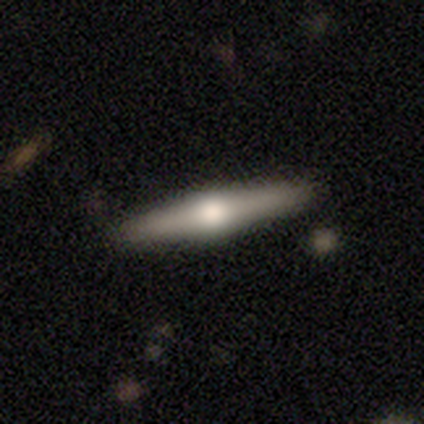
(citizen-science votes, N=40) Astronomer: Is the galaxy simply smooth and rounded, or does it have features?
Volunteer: featured or disk — 72%.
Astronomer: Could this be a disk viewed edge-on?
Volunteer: yes — 100%.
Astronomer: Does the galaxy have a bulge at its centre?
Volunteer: rounded — 93%.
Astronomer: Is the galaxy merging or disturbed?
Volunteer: none — 94%.